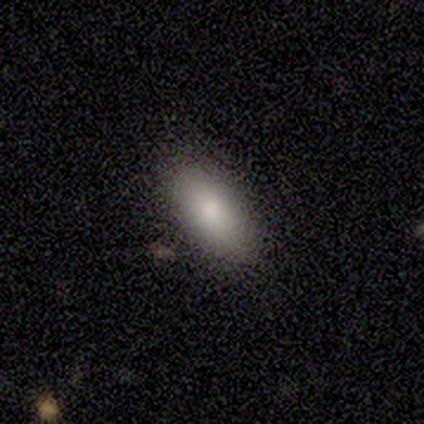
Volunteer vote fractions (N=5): A smooth galaxy with no disk features (100%) that is in between round and cigar-shaped (100%).

Vote fractions:
- Smooth or featured? smooth: 100% / featured or disk: 0% / star or artifact: 0%
- How rounded? in between: 100% / round: 0% / cigar-shaped: 0%
- Merging? none: 100% / minor disturbance: 0% / major disturbance: 0% / merger: 0%